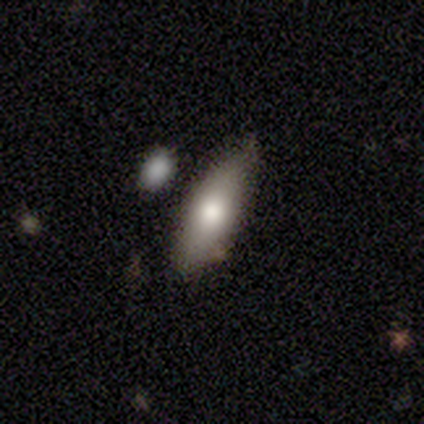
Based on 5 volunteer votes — Volunteers were most divided on "smooth or featured": smooth: 60%, featured or disk: 40%, star or artifact: 0%. More confident: how rounded — in between (67%); merging — none (60%).